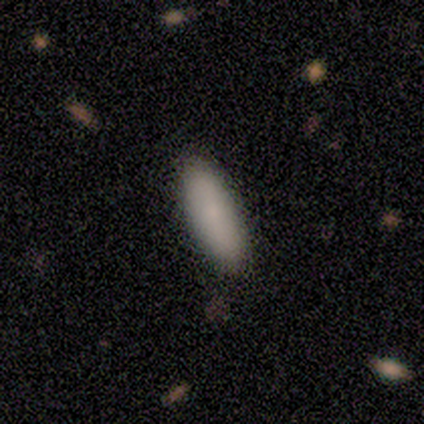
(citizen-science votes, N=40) Overall: smooth (85%). How rounded: in between (59%; cigar-shaped 41%). Merging: none (53%).